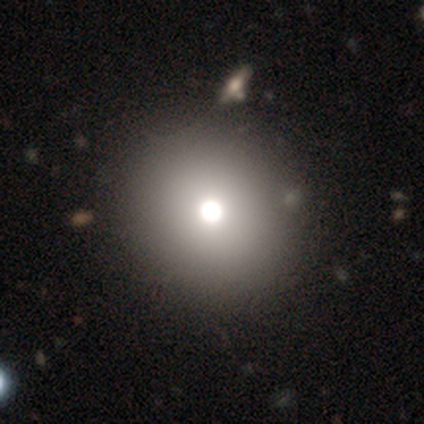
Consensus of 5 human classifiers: Smooth or featured: star or artifact — 60% (smooth — 20%)